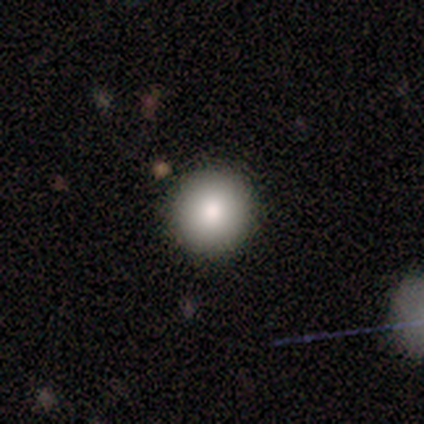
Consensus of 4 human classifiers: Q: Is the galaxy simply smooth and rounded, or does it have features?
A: featured or disk — 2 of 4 (50%).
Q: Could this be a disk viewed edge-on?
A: no — 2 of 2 (100%).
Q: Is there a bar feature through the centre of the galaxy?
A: no — 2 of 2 (100%).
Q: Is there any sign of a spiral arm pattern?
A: no — 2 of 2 (100%).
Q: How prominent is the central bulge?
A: dominant — 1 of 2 (50%, tied with large).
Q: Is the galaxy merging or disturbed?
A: none — 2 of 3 (67%).